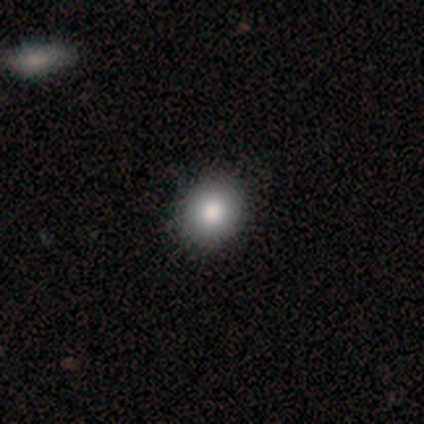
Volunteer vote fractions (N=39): Smooth or featured? 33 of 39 (85%) said smooth. How rounded? 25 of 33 (76%) said round. Merging? 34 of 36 (94%) said none.